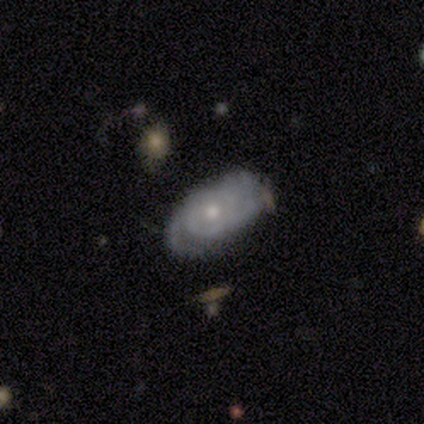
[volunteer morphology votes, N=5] smooth_or_featured: featured or disk (p=0.80) [alt: smooth p=0.20]
disk_edge_on: no (p=1.00)
bar: no (p=0.75) [alt: weak p=0.25]
has_spiral_arms: yes (p=1.00)
spiral_winding: tight (p=1.00)
spiral_arm_count: 3 (p=0.50) [alt: 2 p=0.25]
bulge_size: small (p=0.75) [alt: moderate p=0.25]
merging: none (p=0.80) [alt: minor disturbance p=0.20]